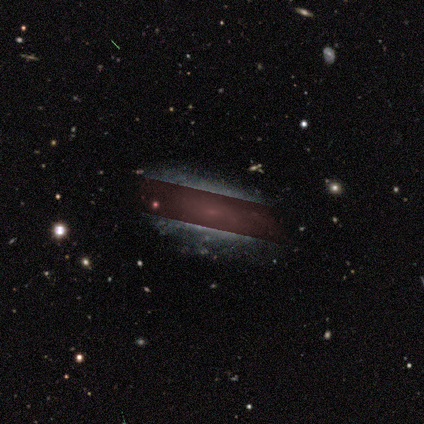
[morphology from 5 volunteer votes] Smooth or featured: featured or disk — 40% (tied with star or artifact — 40%)
Edge-on disk: no — 100%
Bar: no — 100%
Spiral arms: yes — 50% (tied with no — 50%)
Spiral winding: tight — 100%
Spiral arm count: can't tell — 100%
Bulge size: small — 100%
Merging: none — 100%